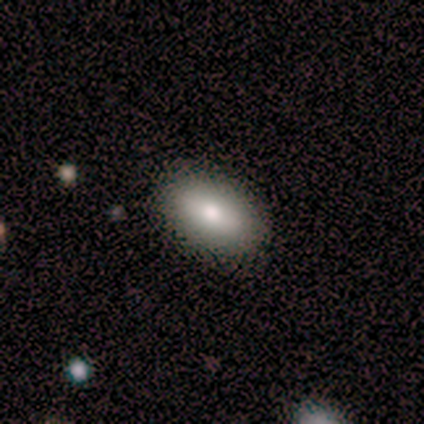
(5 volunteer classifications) This appears to be a smooth galaxy with no disk features (60%) that is in between round and cigar-shaped (100%). Merging: none (100%).